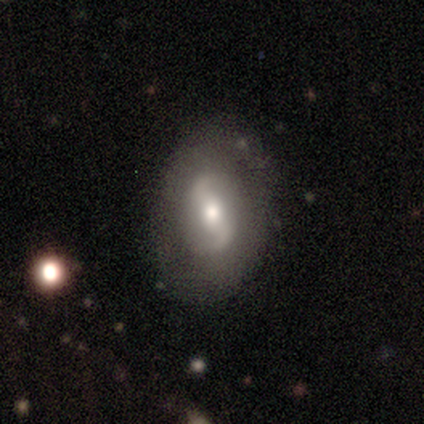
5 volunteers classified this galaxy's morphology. type=featured or disk (80%); edge-on=no (100%); bar=strong (75%); spiral arms=yes (100%); winding=tight (50%); arm count=2 (75%); bulge=moderate (50%, tied with small); merging=none (60%).